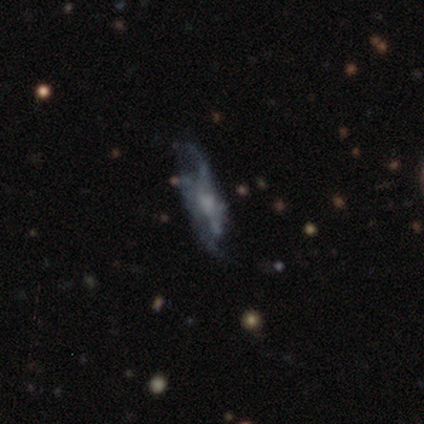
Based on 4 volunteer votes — Q: Smooth or featured?
A: featured or disk (100%)
Q: Edge-on disk?
A: no (100%)
Q: Bar?
A: no (75%); runner-up: weak (25%)
Q: Spiral arms?
A: no (75%); runner-up: yes (25%)
Q: Bulge size?
A: moderate (50%); runner-up: small (25%)
Q: Merging?
A: none (50%); runner-up: minor disturbance (25%)